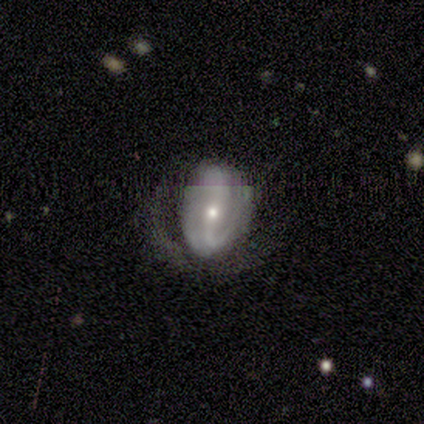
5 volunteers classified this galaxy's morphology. smooth_or_featured: smooth (p=0.40) [tied with: featured or disk p=0.40]
how_rounded: in between (p=1.00)
merging: major disturbance (p=0.50) [alt: none p=0.25]